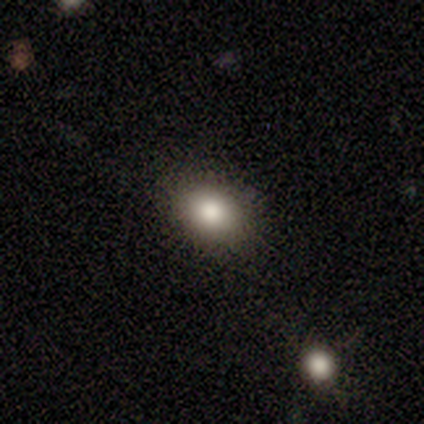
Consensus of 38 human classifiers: Morphology: type=smooth (84%); roundness=in between (66%); merging=none (83%).